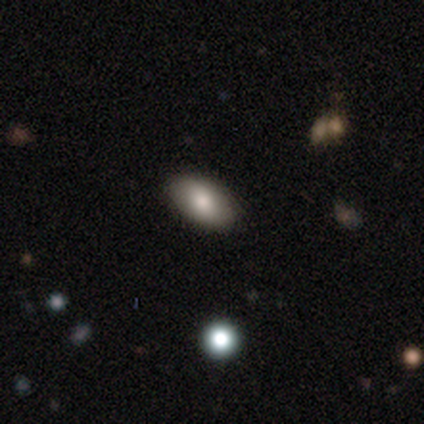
smooth-or-featured: smooth: 83% | star or artifact: 17% | featured or disk: 0%
  how-rounded: in between: 100% | round: 0% | cigar-shaped: 0%
  merging: none: 80% | minor disturbance: 20% | major disturbance: 0% | merger: 0%